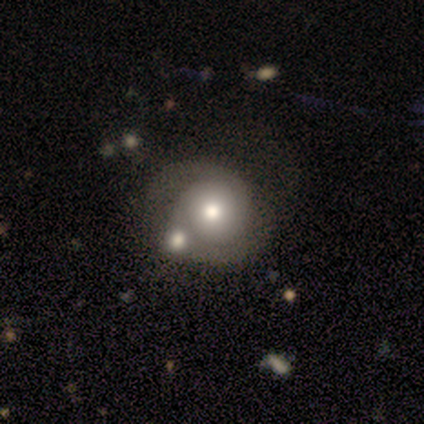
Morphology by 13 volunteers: smooth_or_featured: smooth (p=0.46) [alt: featured or disk p=0.38]
how_rounded: round (p=1.00)
merging: merger (p=0.45) [alt: none p=0.27]